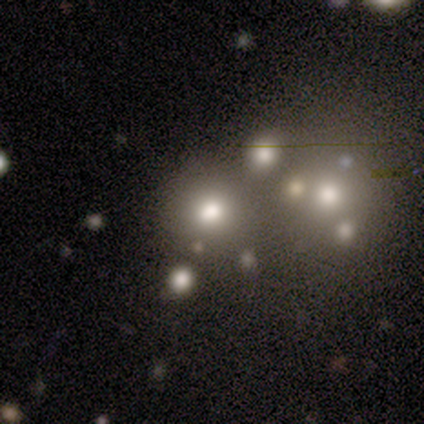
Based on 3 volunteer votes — smooth 100%, featured or disk 0%, star or artifact 0%. Down the decision tree: how rounded — round (67%); merging — none (33%, tied with major disturbance and merger).